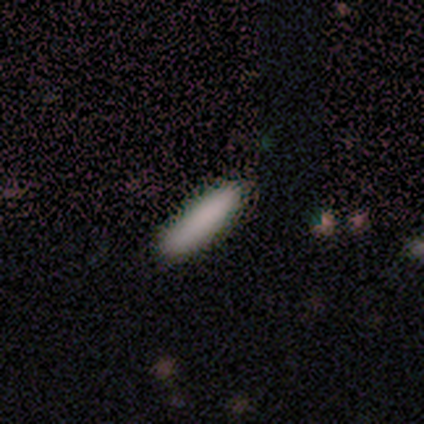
A smooth galaxy with no disk features (88%) that is cigar-shaped (71%).

Vote fractions:
- Smooth or featured? smooth: 88% / star or artifact: 12% / featured or disk: 0%
- How rounded? cigar-shaped: 71% / in between: 29% / round: 0%
- Merging? none: 100% / minor disturbance: 0% / major disturbance: 0% / merger: 0%